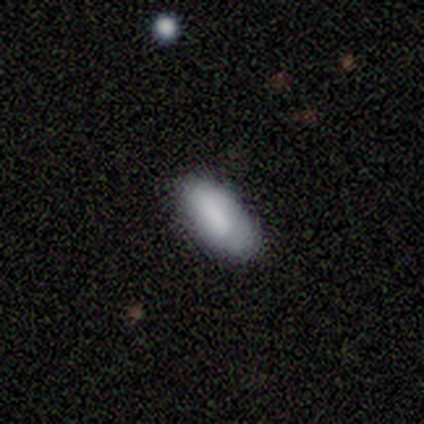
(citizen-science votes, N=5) A smooth galaxy with no disk features (100%) that is in between round and cigar-shaped (100%).

Vote fractions:
- Smooth or featured? smooth: 100% / featured or disk: 0% / star or artifact: 0%
- How rounded? in between: 100% / round: 0% / cigar-shaped: 0%
- Merging? none: 100% / minor disturbance: 0% / major disturbance: 0% / merger: 0%